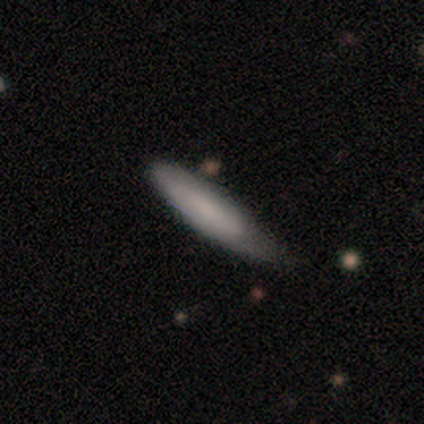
This is clearly a smooth galaxy (100%). How rounded: clearly in between (80%). Merging: clearly minor disturbance (80%).